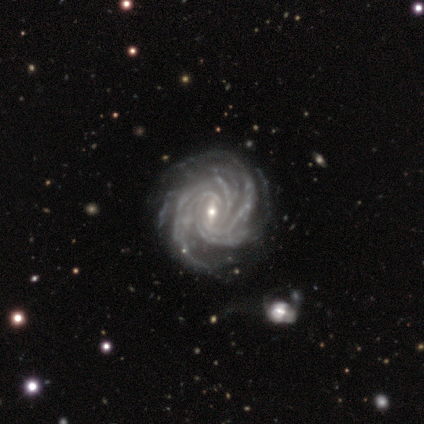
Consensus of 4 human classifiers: Smooth or featured?
  - featured or disk: 75% *
  - star or artifact: 25%
  - smooth: 0%
Edge-on disk?
  - no: 100% *
  - yes: 0%
Bar?
  - weak: 67% *
  - strong: 33%
  - no: 0%
Spiral arms?
  - yes: 100% *
  - no: 0%
Spiral winding?
  - medium: 67% *
  - tight: 33%
  - loose: 0%
Spiral arm count?
  - more than 4: 67% *
  - 3: 33%
  - 1: 0%
  - 2: 0%
  - 4: 0%
  - can't tell: 0%
Bulge size?
  - small: 100% *
  - dominant: 0%
  - large: 0%
  - moderate: 0%
  - none: 0%
Merging?
  - none: 67% *
  - major disturbance: 33%
  - minor disturbance: 0%
  - merger: 0%